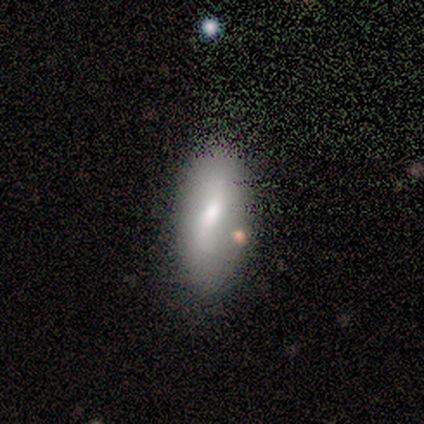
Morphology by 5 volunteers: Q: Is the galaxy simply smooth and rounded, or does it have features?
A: smooth — 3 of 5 (60%).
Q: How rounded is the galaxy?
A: in between — 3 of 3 (100%).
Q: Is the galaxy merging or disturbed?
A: none — 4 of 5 (80%).